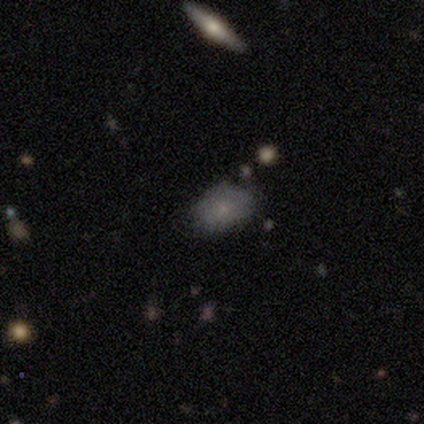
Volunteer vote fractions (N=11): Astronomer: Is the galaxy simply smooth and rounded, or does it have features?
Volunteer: smooth — 73%.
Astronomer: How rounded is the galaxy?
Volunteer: in between — 75%.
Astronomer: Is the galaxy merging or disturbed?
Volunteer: none — 78%.